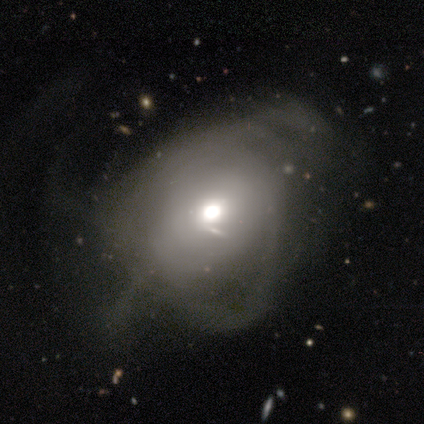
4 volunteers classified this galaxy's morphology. type=smooth (50%, tied with featured or disk); roundness=in between (100%); merging=minor disturbance (50%, tied with major disturbance).